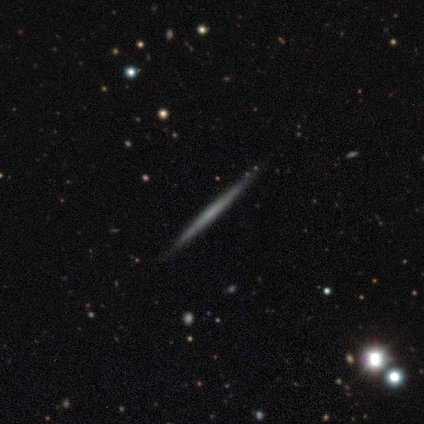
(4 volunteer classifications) smooth-or-featured: featured or disk: 100% | smooth: 0% | star or artifact: 0%
  disk-edge-on: yes: 100% | no: 0%
    edge-on-bulge: none: 100% | boxy: 0% | rounded: 0%
  merging: none: 100% | minor disturbance: 0% | major disturbance: 0% | merger: 0%